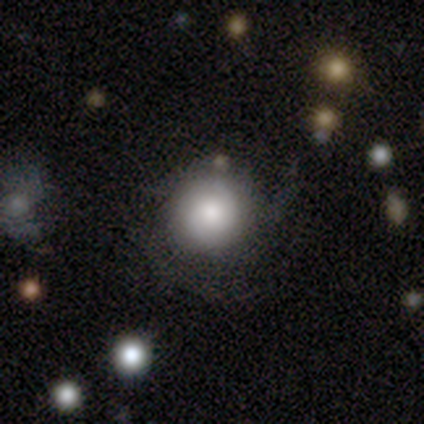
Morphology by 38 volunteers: smooth-or-featured: smooth: 63% | featured or disk: 26% | star or artifact: 11%
  how-rounded: round: 96% | in between: 4% | cigar-shaped: 0%
  merging: none: 65% | minor disturbance: 24% | major disturbance: 6% | merger: 6%